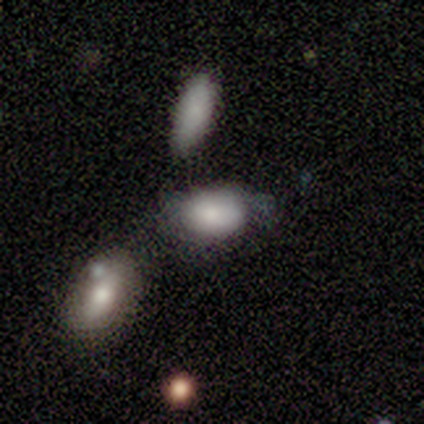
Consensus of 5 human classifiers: This is likely a smooth galaxy (60%). How rounded: clearly in between (100%). Merging: possibly minor disturbance (50%, tied with merger).